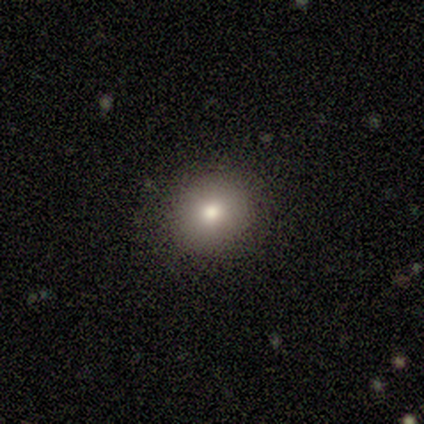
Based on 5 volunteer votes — smooth_or_featured: smooth (p=0.40) [tied with: star or artifact p=0.40]
how_rounded: round (p=1.00)
merging: none (p=0.67) [alt: minor disturbance p=0.33]